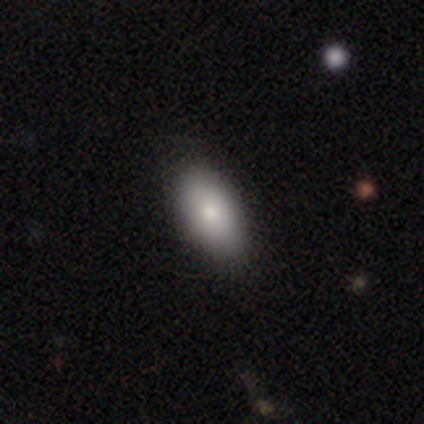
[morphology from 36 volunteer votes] smooth-or-featured: smooth: 75% | featured or disk: 14% | star or artifact: 11%
  how-rounded: in between: 96% | cigar-shaped: 4% | round: 0%
  merging: none: 84% | minor disturbance: 12% | major disturbance: 3% | merger: 0%